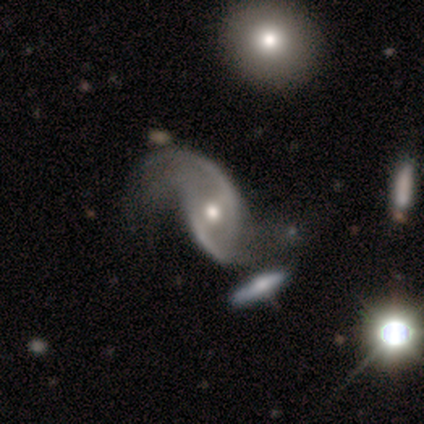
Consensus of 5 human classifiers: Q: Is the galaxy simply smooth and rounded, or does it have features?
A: featured or disk — 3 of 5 (60%).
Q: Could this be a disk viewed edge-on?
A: no — 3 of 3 (100%).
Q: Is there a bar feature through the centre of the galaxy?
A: weak — 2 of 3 (67%).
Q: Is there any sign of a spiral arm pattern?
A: yes — 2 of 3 (67%).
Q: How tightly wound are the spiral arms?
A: loose — 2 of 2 (100%).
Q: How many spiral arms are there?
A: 2 — 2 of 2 (100%).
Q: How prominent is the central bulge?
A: moderate — 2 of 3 (67%).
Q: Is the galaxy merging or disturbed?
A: major disturbance — 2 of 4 (50%).